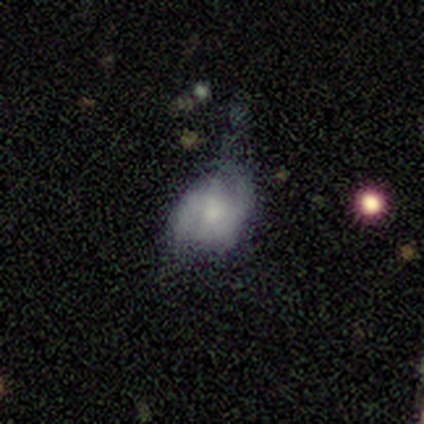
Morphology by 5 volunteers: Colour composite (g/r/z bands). It shows a smooth galaxy with no disk features (60%) that is in between round and cigar-shaped (67%). Merging: none (60%).